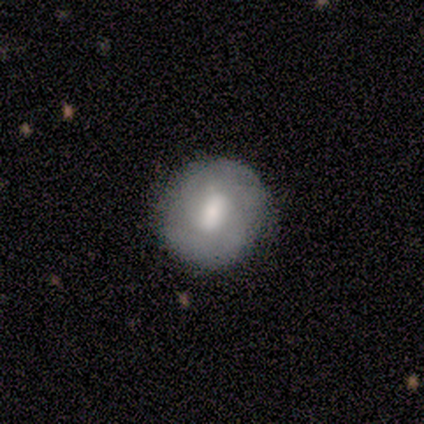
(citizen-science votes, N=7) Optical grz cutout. It shows a featured or disk galaxy (57%) with a weak bar (75%), 2 (100%) medium (100%) spiral arms (50%, tied with no) and a small central bulge (75%). Merging: minor disturbance (57%).